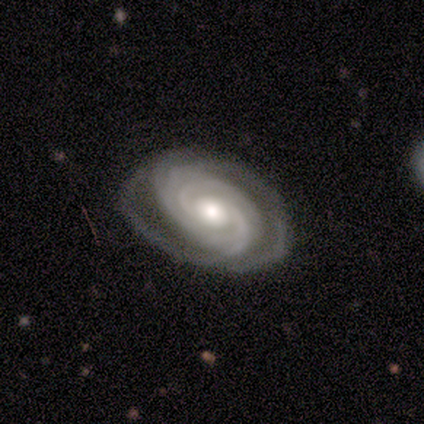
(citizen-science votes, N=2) Morphology: type=featured or disk (100%); edge-on=no (100%); bar=no (100%); spiral arms=yes (100%); winding=tight (50%, tied with medium); arm count=3 (50%, tied with 4); bulge=moderate (50%, tied with small); merging=none (50%, tied with minor disturbance).